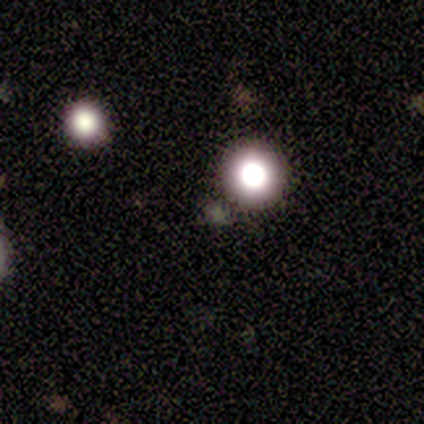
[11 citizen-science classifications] Q: Smooth or featured?
A: star or artifact (64%); runner-up: smooth (36%)